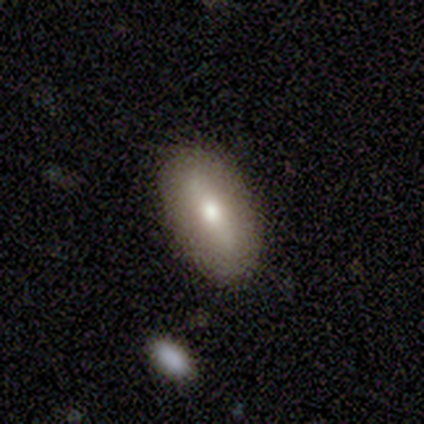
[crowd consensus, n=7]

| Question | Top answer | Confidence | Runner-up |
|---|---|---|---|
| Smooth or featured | smooth | 71% | featured or disk (29%) |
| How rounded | in between | 100% | — |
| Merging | none | 100% | — |